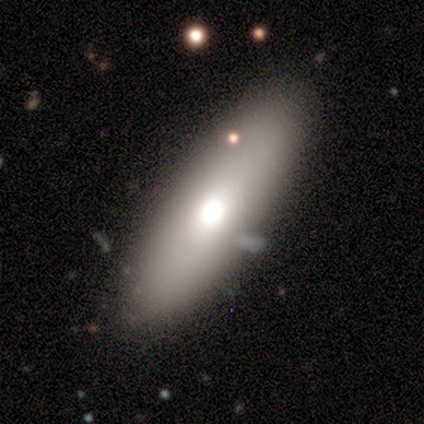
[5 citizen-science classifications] Smooth or featured? 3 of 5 (60%) said featured or disk. Edge-on disk? 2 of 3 (67%) said yes. Edge-on bulge? 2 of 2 (100%) said rounded. Merging? 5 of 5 (100%) said none.